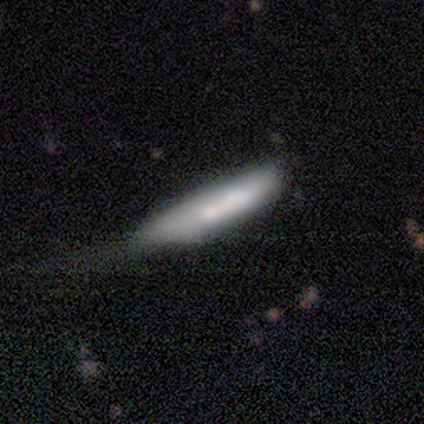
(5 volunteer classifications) This is clearly a smooth galaxy (80%). How rounded: likely cigar-shaped (75%). Merging: marginally major disturbance (40%).